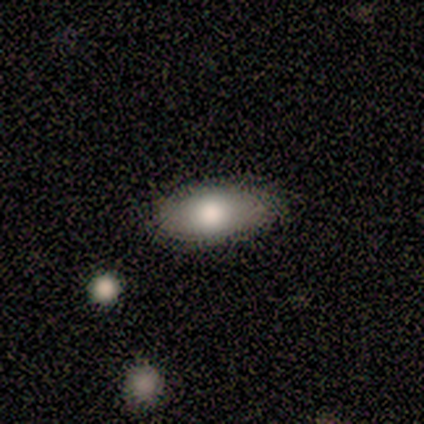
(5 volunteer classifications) This is likely a featured or disk galaxy (60%). It is likely not viewed edge-on (67%). Bar: clearly no (100%). Spiral arm pattern: possibly yes (50%, tied with no). Spiral arm count: clearly can't tell (100%). Spiral winding: clearly tight (100%). Central bulge: possibly large (50%, tied with moderate). Merging: clearly none (100%).